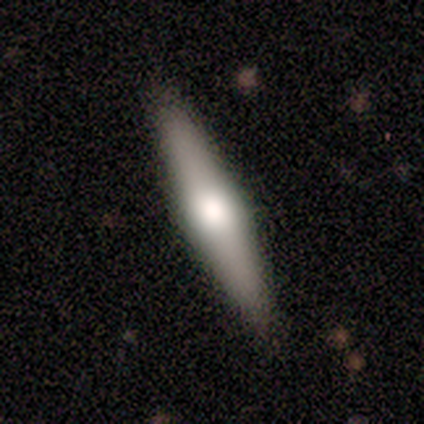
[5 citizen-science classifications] Morphology: type=featured or disk (60%); edge-on=yes (67%); edge-on bulge=rounded (100%); merging=none (100%).